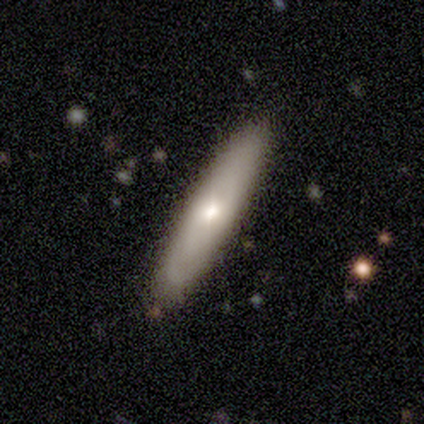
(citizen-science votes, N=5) A smooth galaxy with no disk features (100%) that is cigar-shaped (80%).

Vote fractions:
- Smooth or featured? smooth: 100% / featured or disk: 0% / star or artifact: 0%
- How rounded? cigar-shaped: 80% / in between: 20% / round: 0%
- Merging? none: 100% / minor disturbance: 0% / major disturbance: 0% / merger: 0%